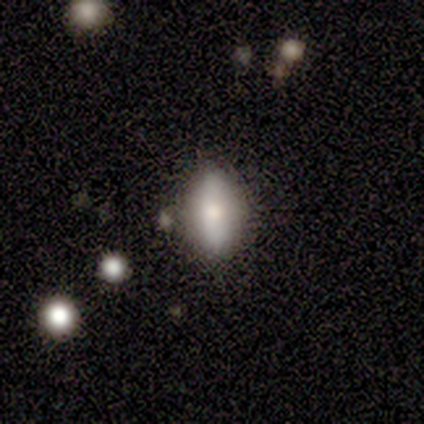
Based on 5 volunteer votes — Smooth or featured?
  - smooth: 80% *
  - featured or disk: 20%
  - star or artifact: 0%
How rounded?
  - in between: 100% *
  - round: 0%
  - cigar-shaped: 0%
Merging?
  - none: 100% *
  - minor disturbance: 0%
  - major disturbance: 0%
  - merger: 0%